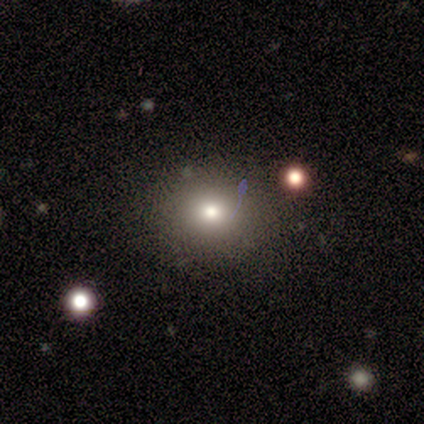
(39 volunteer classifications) Overall: smooth (74%). How rounded: round (93%). Merging: none (81%).